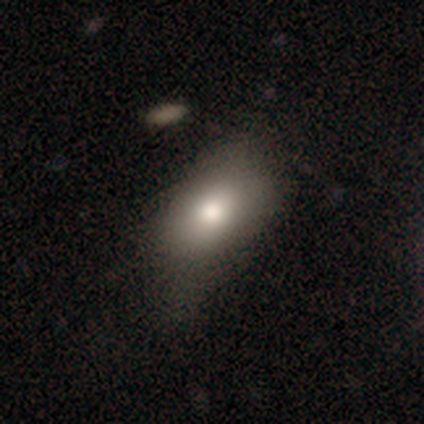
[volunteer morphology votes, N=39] A smooth galaxy with no disk features (87%) that is in between round and cigar-shaped (88%). Merging: none (35%).